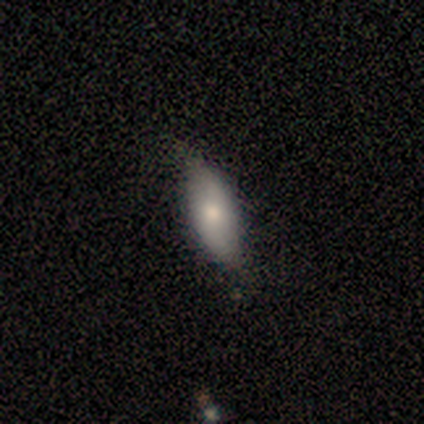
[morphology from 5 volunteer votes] Smooth or featured: smooth — 80% (featured or disk — 20%)
How rounded: in between — 75% (cigar-shaped — 25%)
Merging: none — 80% (minor disturbance — 20%)